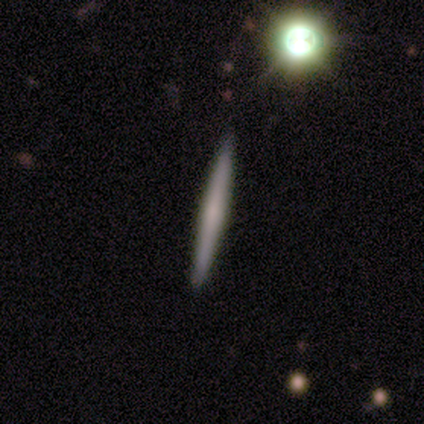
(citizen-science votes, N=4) Overall: smooth (75%). How rounded: cigar-shaped (100%). Merging: none (100%).